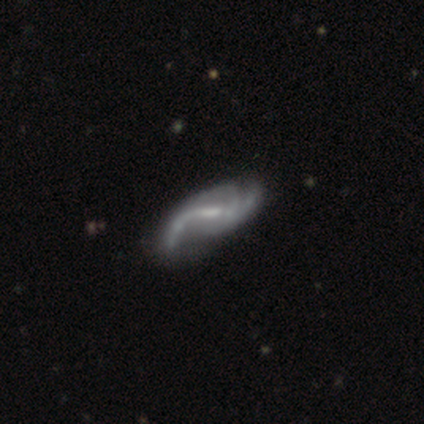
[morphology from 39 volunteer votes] featured or disk 95%, smooth 3%, star or artifact 3%. Down the decision tree: edge-on disk — no (97%); bar — weak (64%); spiral arms — yes (94%); spiral arm count — 2 (47%); spiral winding — loose (71%); bulge size — small (50%); merging — none (32%).